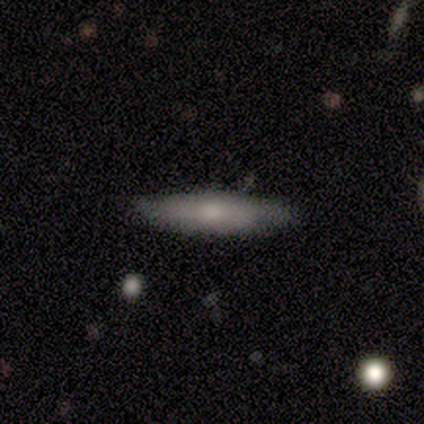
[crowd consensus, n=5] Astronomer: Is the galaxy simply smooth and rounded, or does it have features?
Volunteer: smooth — 80%.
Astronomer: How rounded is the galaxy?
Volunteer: cigar-shaped — 75%.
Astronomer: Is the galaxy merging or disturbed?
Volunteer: none — 80%.